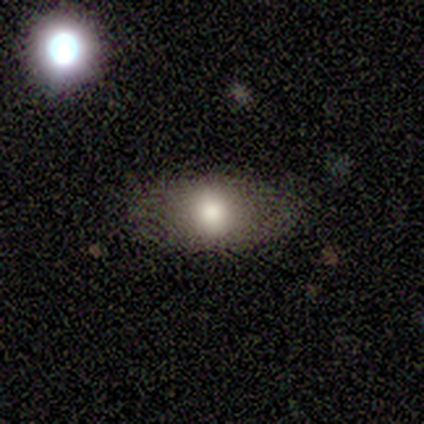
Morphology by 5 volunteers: Overall: smooth (100%). How rounded: in between (100%). Merging: none (60%; minor disturbance 40%).